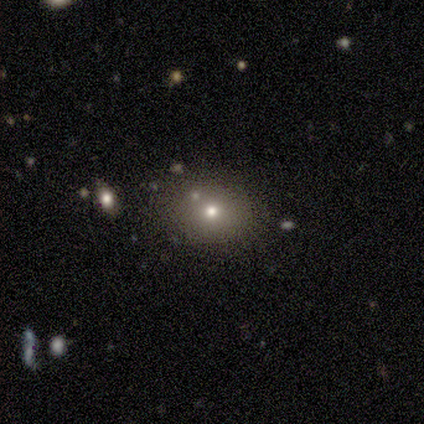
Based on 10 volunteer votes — Volunteers were most divided on "smooth or featured" (2-way tie): smooth: 40%, star or artifact: 40%, featured or disk: 20%; "how rounded" (2-way tie): round: 50%, in between: 50%, cigar-shaped: 0%. More confident: merging — none (67%).